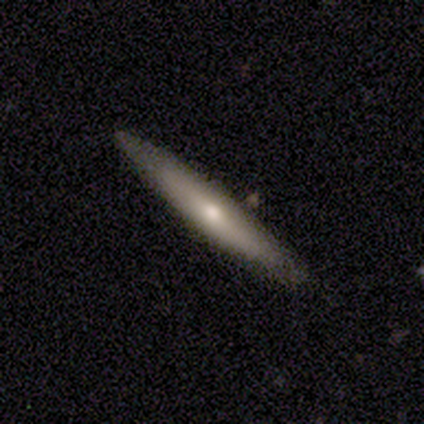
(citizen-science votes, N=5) Smooth or featured?
  - featured or disk: 60% *
  - smooth: 40%
  - star or artifact: 0%
Edge-on disk?
  - yes: 100% *
  - no: 0%
Edge-on bulge?
  - rounded: 100% *
  - boxy: 0%
  - none: 0%
Merging?
  - none: 100% *
  - minor disturbance: 0%
  - major disturbance: 0%
  - merger: 0%